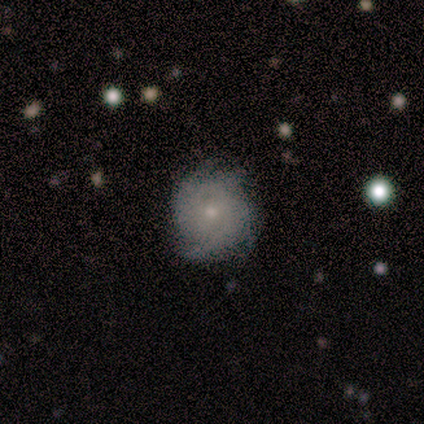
Smooth or featured? 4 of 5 (80%) said featured or disk. Edge-on disk? 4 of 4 (100%) said no. Bar? 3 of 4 (75%) said no. Spiral arms? 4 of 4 (100%) said yes. Spiral winding? 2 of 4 (50%, tied with medium) said tight. Spiral arm count? 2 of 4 (50%) said 4. Bulge size? 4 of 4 (100%) said small. Merging? 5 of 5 (100%) said none.